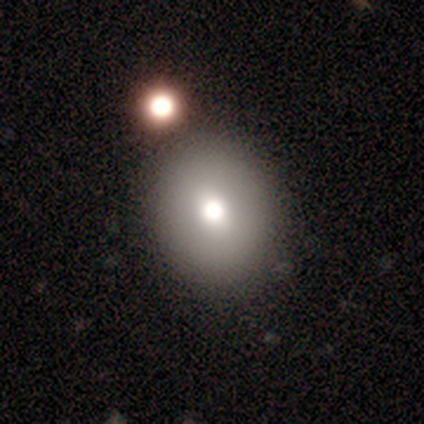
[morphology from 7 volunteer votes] Smooth or featured? smooth (57%)
How rounded? round (75%)
Merging? none (86%)